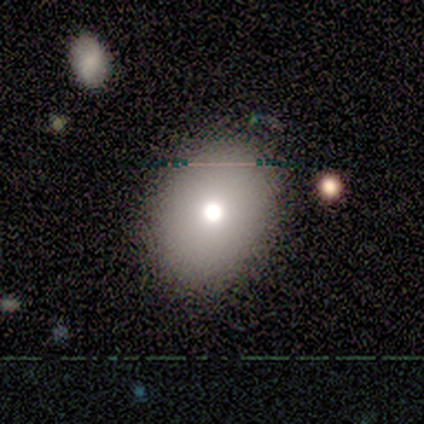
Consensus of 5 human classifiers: smooth_or_featured: smooth (p=0.40) [tied with: featured or disk p=0.40]
how_rounded: in between (p=1.00)
merging: none (p=0.75) [alt: minor disturbance p=0.25]